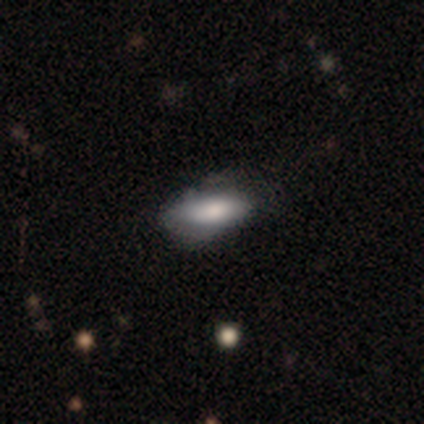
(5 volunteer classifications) This is clearly a smooth galaxy (80%). How rounded: clearly in between (100%). Merging: marginally none (40%, tied with minor disturbance).